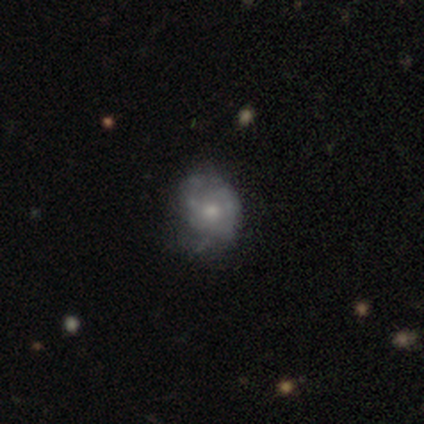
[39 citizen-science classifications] Smooth or featured?
  - featured or disk: 54% *
  - smooth: 36%
  - star or artifact: 10%
Edge-on disk?
  - no: 100% *
  - yes: 0%
Bar?
  - no: 76% *
  - weak: 14%
  - strong: 10%
Spiral arms?
  - no: 52% *
  - yes: 48%
Bulge size?
  - small: 52% *
  - moderate: 43%
  - dominant: 5%
  - large: 0%
  - none: 0%
Merging?
  - none: 34% *
  - minor disturbance: 17%
  - merger: 6%
  - major disturbance: 0%